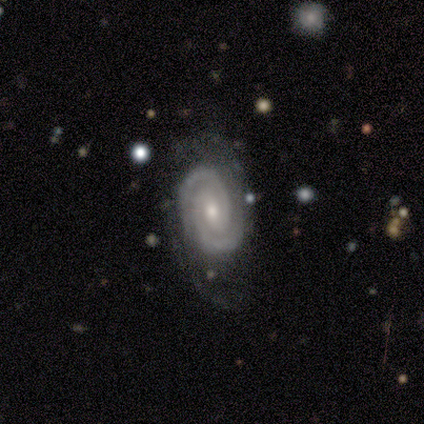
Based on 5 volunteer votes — This appears to be a featured or disk galaxy (80%) with no bar (75%), 2 (50%) tight (75%) spiral arms (100%) and a small central bulge (100%). Merging: none (100%).